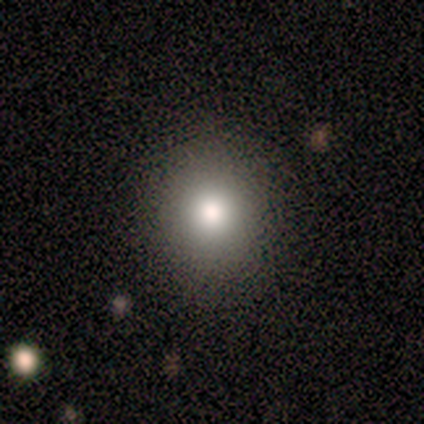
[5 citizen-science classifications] Smooth or featured? smooth (80%)
How rounded? round (75%)
Merging? none (100%)